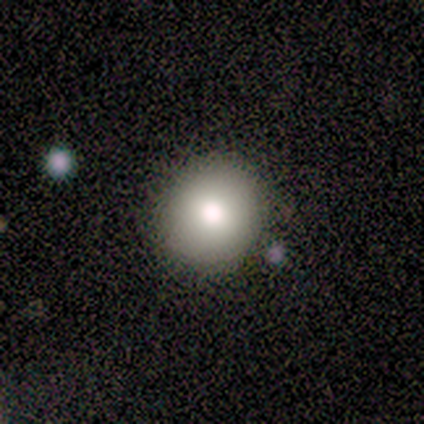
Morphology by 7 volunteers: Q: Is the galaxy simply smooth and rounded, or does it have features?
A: smooth — 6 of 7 (86%).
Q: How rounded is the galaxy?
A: round — 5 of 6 (83%).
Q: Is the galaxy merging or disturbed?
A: none — 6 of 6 (100%).